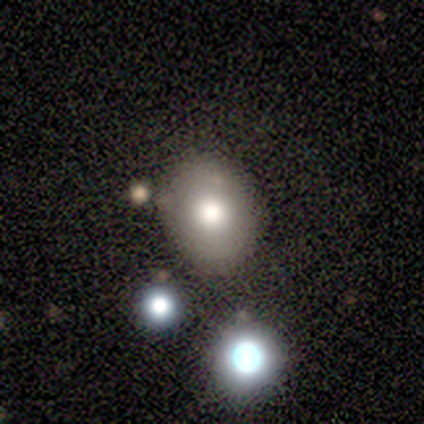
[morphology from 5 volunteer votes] smooth-or-featured: smooth: 80% | featured or disk: 20% | star or artifact: 0%
  how-rounded: round: 50% (tied) | in between: 50% (tied) | cigar-shaped: 0%
  merging: none: 60% | merger: 40% | minor disturbance: 0% | major disturbance: 0%